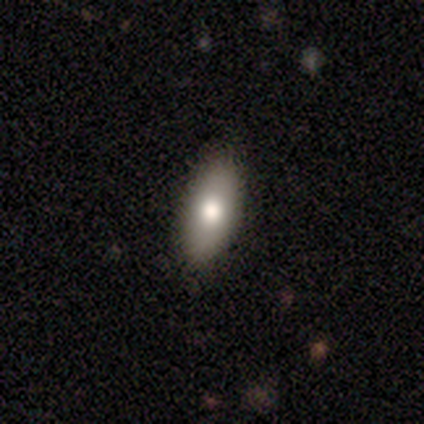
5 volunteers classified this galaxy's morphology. Volunteers were most divided on "smooth or featured": smooth: 60%, featured or disk: 20%, star or artifact: 20%. More confident: how rounded — in between (100%); merging — none (75%).